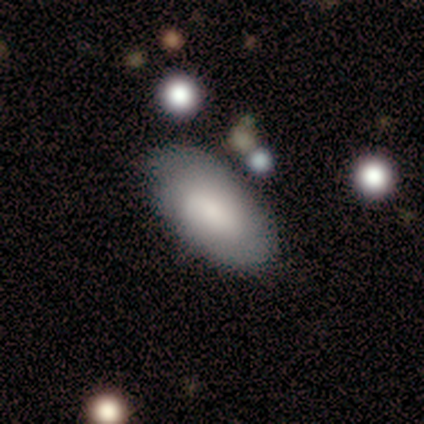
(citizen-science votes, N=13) smooth_or_featured: smooth (p=0.62) [alt: featured or disk p=0.38]
how_rounded: in between (p=0.75) [alt: round p=0.12]
merging: none (p=0.77) [alt: minor disturbance p=0.15]